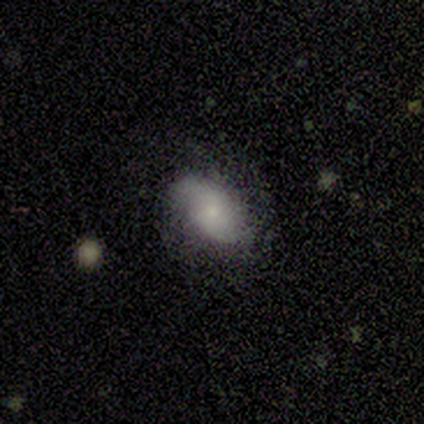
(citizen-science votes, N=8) Smooth or featured?
  - featured or disk: 50% *
  - smooth: 38%
  - star or artifact: 12%
Edge-on disk?
  - no: 100% *
  - yes: 0%
Bar?
  - no: 75% *
  - weak: 25%
  - strong: 0%
Spiral arms?
  - yes: 100% *
  - no: 0%
Spiral winding?
  - loose: 75% *
  - medium: 25%
  - tight: 0%
Spiral arm count?
  - 2: 50% * (tied)
  - can't tell: 50% * (tied)
  - 1: 0%
  - 3: 0%
  - 4: 0%
  - more than 4: 0%
Bulge size?
  - small: 75% *
  - moderate: 25%
  - dominant: 0%
  - large: 0%
  - none: 0%
Merging?
  - none: 86% *
  - major disturbance: 14%
  - minor disturbance: 0%
  - merger: 0%